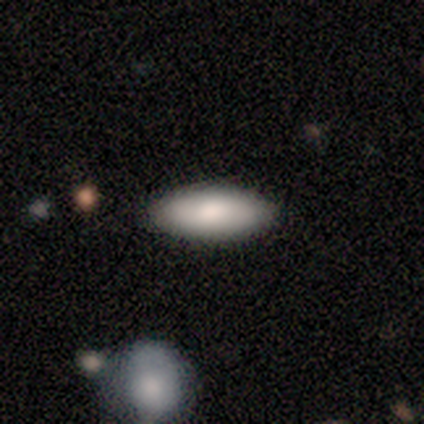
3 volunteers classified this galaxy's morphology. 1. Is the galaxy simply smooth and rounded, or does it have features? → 67% smooth, 33% featured or disk, 0% star or artifact.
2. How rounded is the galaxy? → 100% in between, 0% round, 0% cigar-shaped.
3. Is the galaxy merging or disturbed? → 100% none, 0% minor disturbance, 0% major disturbance, 0% merger.